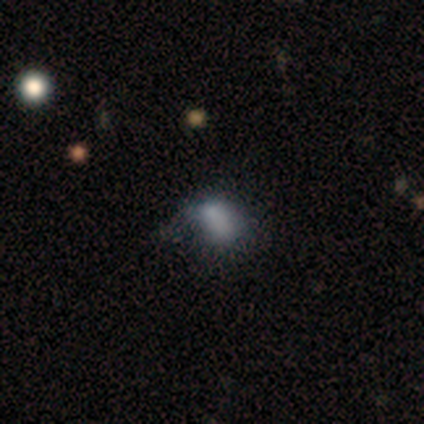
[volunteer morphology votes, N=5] This appears to be a smooth galaxy with no disk features (40%, tied with featured or disk) that is in between round and cigar-shaped (100%). Merging: none (50%, tied with major disturbance).